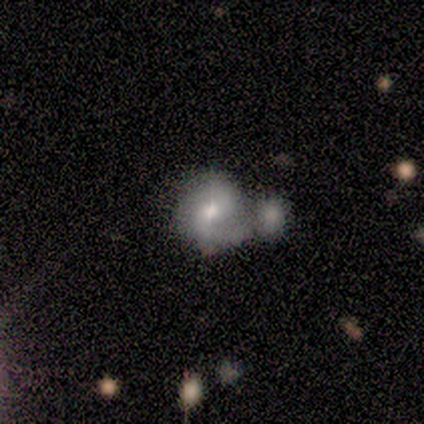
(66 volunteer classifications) smooth-or-featured: featured or disk: 64% | smooth: 26% | star or artifact: 11%
  disk-edge-on: no: 100% | yes: 0%
    bar: no: 69% | weak: 26% | strong: 5%
    has-spiral-arms: yes: 83% | no: 17%
      spiral-winding: tight: 37% (tied) | medium: 37% (tied) | loose: 26%
      spiral-arm-count: 2: 69% | 1: 20% | can't tell: 11% | 3: 0% | 4: 0% | more than 4: 0%
    bulge-size: moderate: 76% | small: 19% | large: 2% | none: 2% | dominant: 0%
  merging: merger: 56% | none: 17% | minor disturbance: 17% | major disturbance: 10%